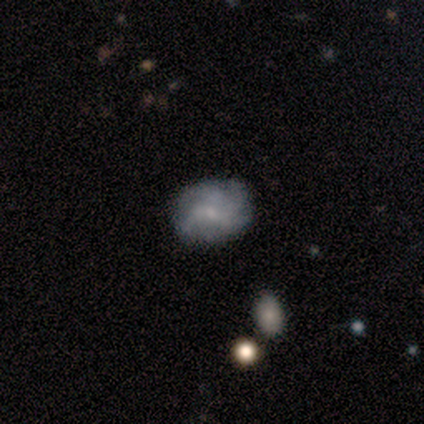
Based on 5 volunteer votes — Smooth or featured? 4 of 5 (80%) said featured or disk. Edge-on disk? 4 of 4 (100%) said no. Bar? 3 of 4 (75%) said no. Spiral arms? 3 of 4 (75%) said yes. Spiral winding? 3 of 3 (100%) said loose. Spiral arm count? 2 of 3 (67%) said 4. Bulge size? 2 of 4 (50%) said small. Merging? 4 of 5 (80%) said none.